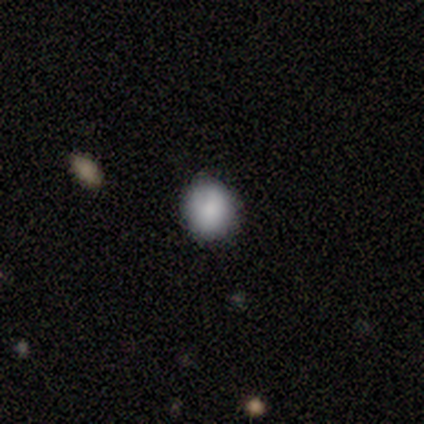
Morphology: type=smooth (80%); roundness=round (75%); merging=none (75%).